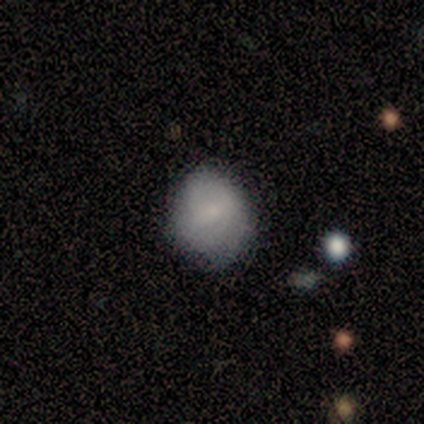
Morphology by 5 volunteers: Volunteers were most divided on "how rounded": round: 60%, in between: 40%, cigar-shaped: 0%. More confident: smooth or featured — smooth (100%); merging — none (60%).